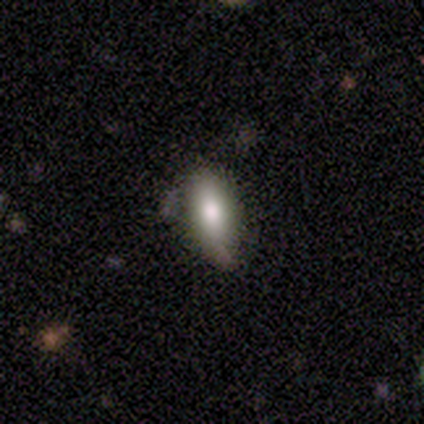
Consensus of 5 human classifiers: Q: Smooth or featured?
A: smooth (60%); runner-up: featured or disk (20%)
Q: How rounded?
A: in between (100%)
Q: Merging?
A: none (100%)